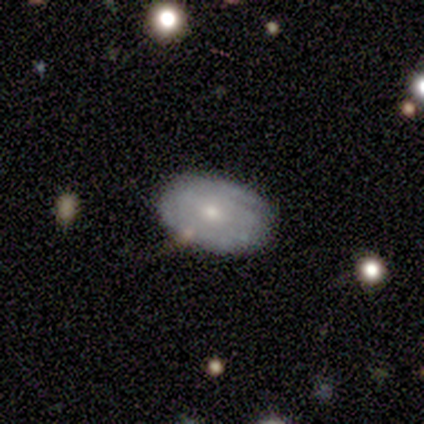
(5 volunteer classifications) Smooth or featured? smooth (40%, tied with featured or disk)
How rounded? round (50%, tied with in between)
Merging? none (100%)